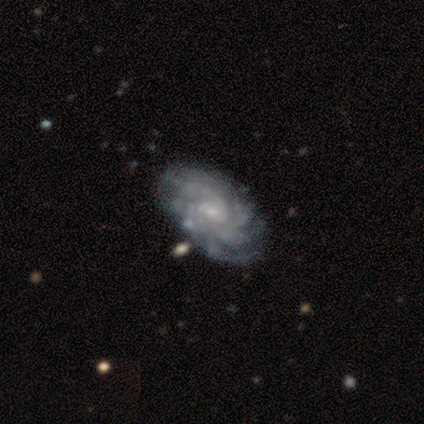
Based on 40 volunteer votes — Smooth or featured? featured or disk (98%)
Edge-on disk? no (100%)
Bar? weak (54%)
Spiral arms? yes (100%)
Spiral winding? tight (74%)
Spiral arm count? more than 4 (54%)
Bulge size? small (64%)
Merging? none (48%)